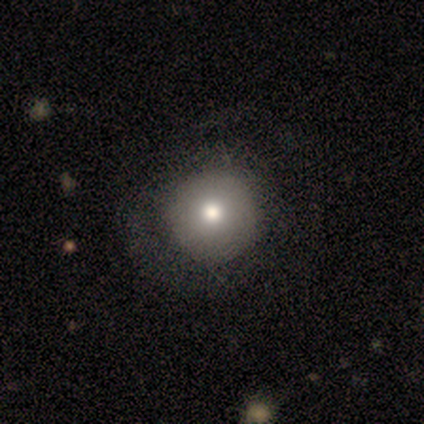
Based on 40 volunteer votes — Smooth or featured: smooth — 75% (star or artifact — 15%)
How rounded: round — 97% (in between — 3%)
Merging: none — 59% (minor disturbance — 9%)